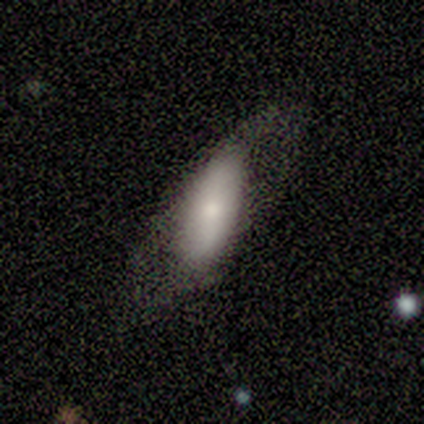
Morphology: type=smooth (75%); roundness=in between (100%); merging=none (50%, tied with minor disturbance).